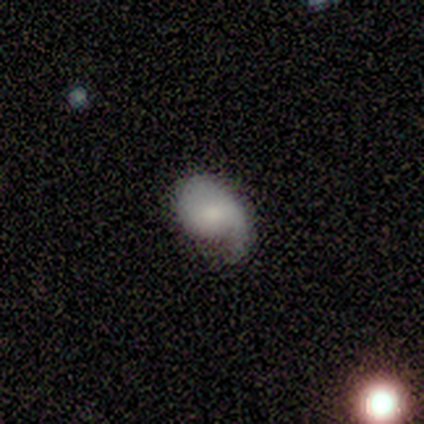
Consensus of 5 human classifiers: smooth_or_featured: smooth (p=0.60) [alt: featured or disk p=0.40]
how_rounded: round (p=0.67) [alt: in between p=0.33]
merging: none (p=0.60) [alt: minor disturbance p=0.20]